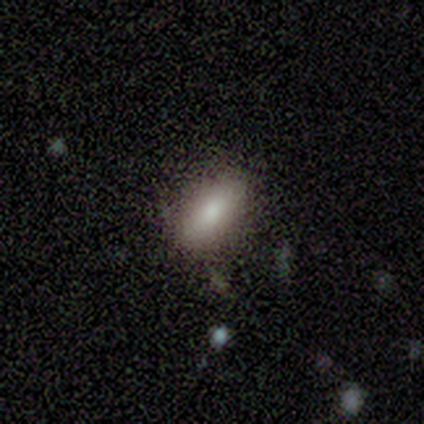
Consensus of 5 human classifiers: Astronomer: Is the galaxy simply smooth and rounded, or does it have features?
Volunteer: smooth — 80%.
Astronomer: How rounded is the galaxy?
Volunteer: in between — 75%.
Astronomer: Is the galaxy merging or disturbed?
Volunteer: none — 100%.